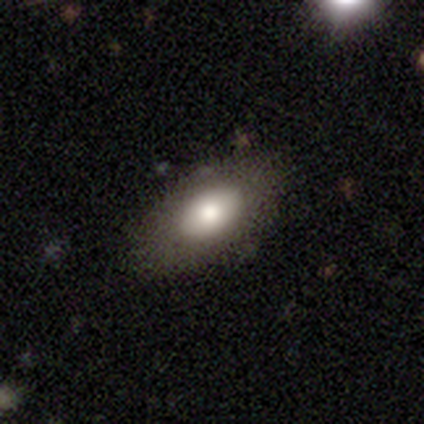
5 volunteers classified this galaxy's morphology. smooth-or-featured: smooth: 60% | star or artifact: 40% | featured or disk: 0%
  how-rounded: in between: 100% | round: 0% | cigar-shaped: 0%
  merging: none: 100% | minor disturbance: 0% | major disturbance: 0% | merger: 0%